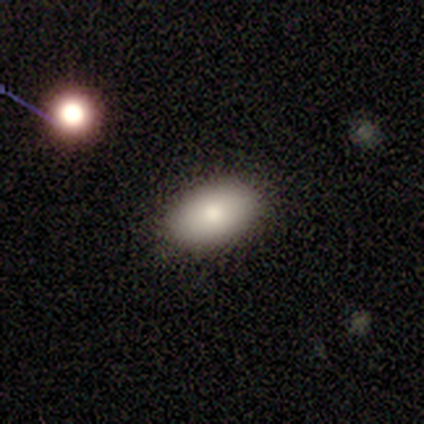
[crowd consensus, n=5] This is clearly a smooth galaxy (80%). How rounded: clearly in between (100%). Merging: clearly none (100%).